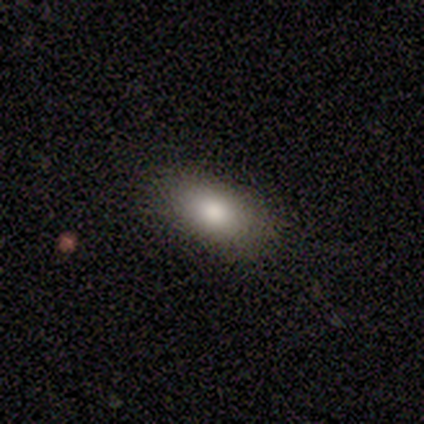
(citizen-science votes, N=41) Smooth or featured? 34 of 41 (83%) said smooth. How rounded? 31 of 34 (91%) said in between. Merging? 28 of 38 (74%) said none.